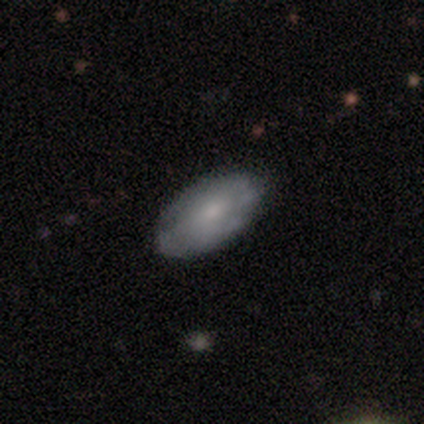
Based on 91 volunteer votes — This appears to be a smooth galaxy with no disk features (59%) that is in between round and cigar-shaped (96%). Merging: none (80%).